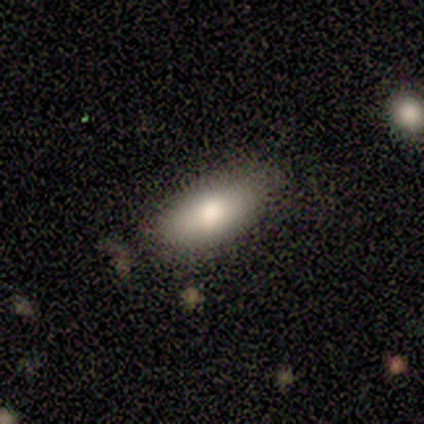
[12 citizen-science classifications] Smooth or featured? smooth (75%)
How rounded? in between (100%)
Merging? none (100%)